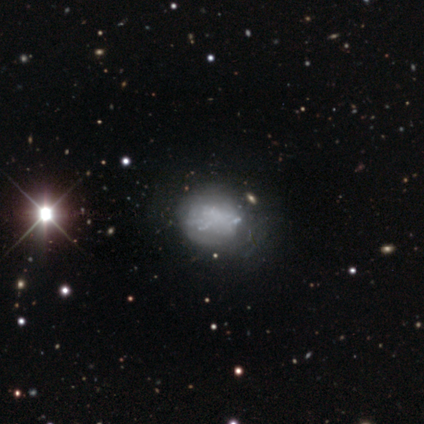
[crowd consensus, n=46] A featured or disk galaxy (59%) with no bar (89%), no spiral arms (81%) and no central bulge (89%). Merging: none (43%).